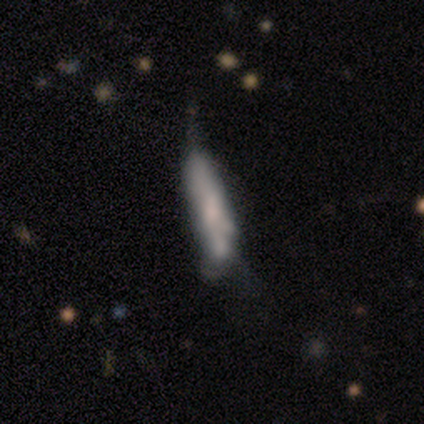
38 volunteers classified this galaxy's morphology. Smooth or featured?
  - featured or disk: 47% *
  - smooth: 45%
  - star or artifact: 8%
Edge-on disk?
  - no: 72% *
  - yes: 28%
Bar?
  - no: 77% *
  - strong: 15%
  - weak: 8%
Spiral arms?
  - no: 92% *
  - yes: 8%
Bulge size?
  - small: 46% *
  - none: 38%
  - dominant: 8%
  - moderate: 8%
  - large: 0%
Merging?
  - minor disturbance: 37% *
  - none: 17%
  - merger: 14%
  - major disturbance: 6%